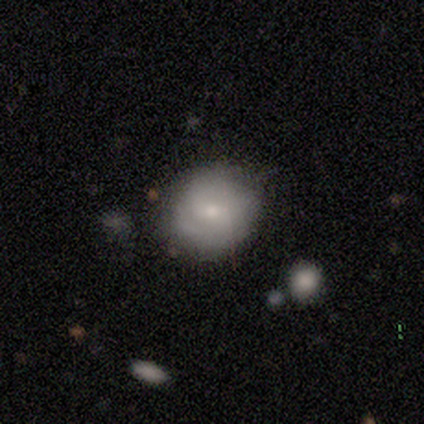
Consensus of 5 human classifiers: smooth 60%, featured or disk 40%, star or artifact 0%. Down the decision tree: how rounded — round (67%); merging — none (80%).